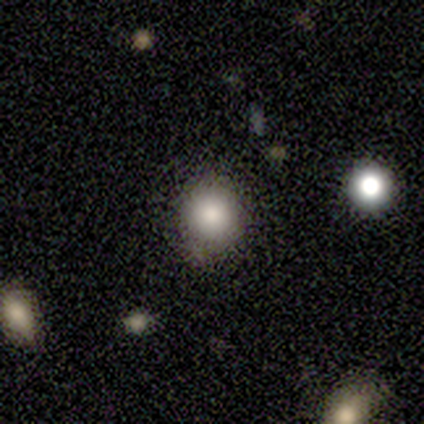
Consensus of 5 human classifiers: This is clearly a smooth galaxy (100%). How rounded: clearly round (80%). Merging: clearly none (100%).